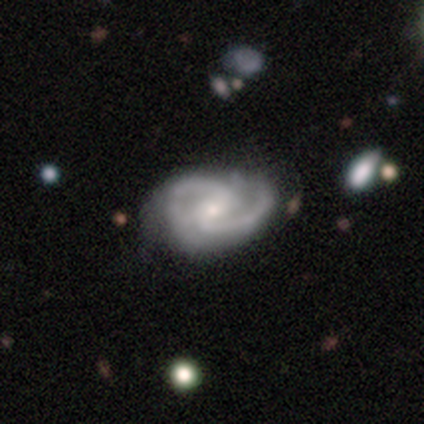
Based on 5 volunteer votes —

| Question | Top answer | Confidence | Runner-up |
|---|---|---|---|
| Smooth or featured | featured or disk | 100% | — |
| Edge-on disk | no | 100% | — |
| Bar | strong | 60% | weak (40%) |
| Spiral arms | yes | 100% | — |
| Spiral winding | medium | 60% | tight (20%) |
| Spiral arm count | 2 | 80% | 3 (20%) |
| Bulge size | moderate | 60% | small (40%) |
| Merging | minor disturbance | 60% | none (40%) |